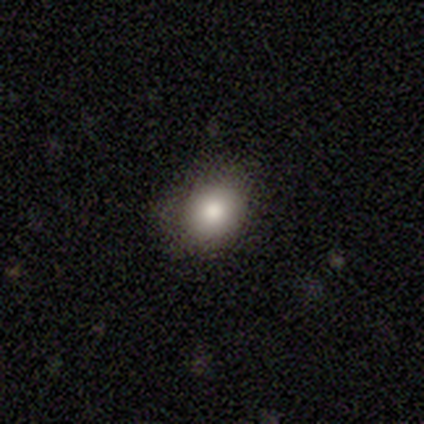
Smooth or featured? smooth (76%)
How rounded? round (61%)
Merging? none (76%)